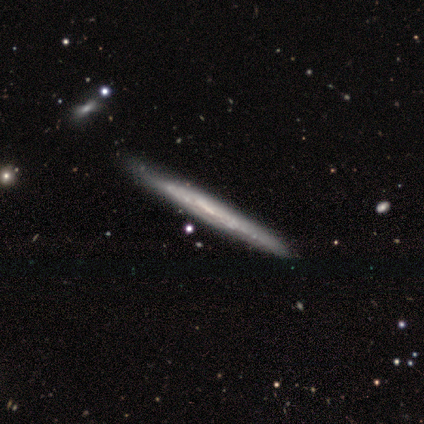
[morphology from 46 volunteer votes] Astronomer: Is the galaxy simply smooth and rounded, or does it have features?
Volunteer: featured or disk — 80%.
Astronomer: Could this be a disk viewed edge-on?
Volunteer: yes — 95%.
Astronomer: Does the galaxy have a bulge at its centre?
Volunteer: none — 91%.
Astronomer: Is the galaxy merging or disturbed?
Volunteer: none — 78%.